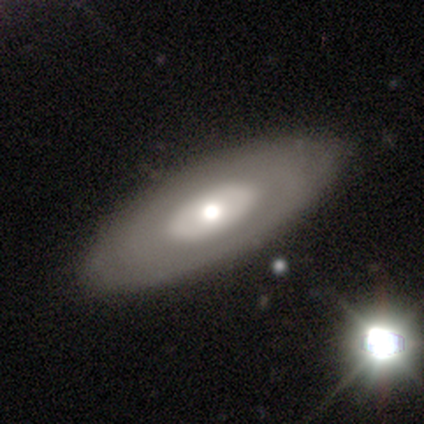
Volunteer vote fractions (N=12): Smooth or featured: featured or disk — 50% (smooth — 33%)
Edge-on disk: no — 83% (yes — 17%)
Bar: no — 100%
Spiral arms: no — 80% (yes — 20%)
Bulge size: moderate — 60% (large — 20%)
Merging: none — 80% (minor disturbance — 10%)